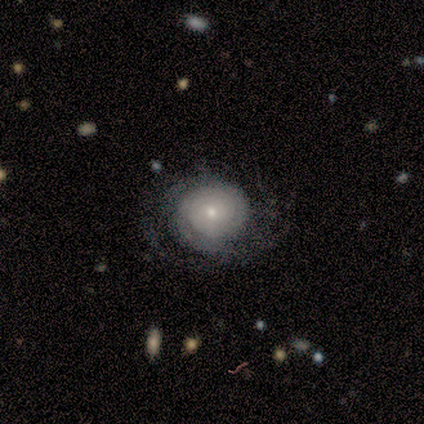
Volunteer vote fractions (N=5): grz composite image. It shows a featured or disk galaxy (80%) with no bar (75%), tight (50%, tied with medium) spiral arms (100%) and a small central bulge (100%). Merging: none (75%).